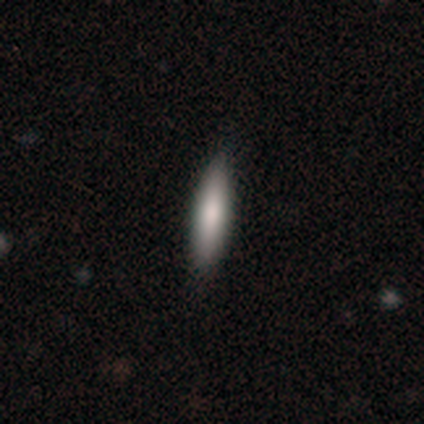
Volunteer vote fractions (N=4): Smooth or featured? 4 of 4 (100%) said smooth. How rounded? 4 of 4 (100%) said cigar-shaped. Merging? 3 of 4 (75%) said none.